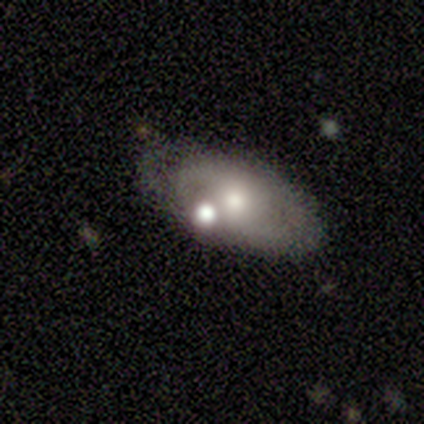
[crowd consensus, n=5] Morphology: type=featured or disk (60%); edge-on=no (67%); bar=weak (50%, tied with no); spiral arms=yes (50%, tied with no); winding=medium (100%); arm count=2 (100%); bulge=moderate (100%); merging=minor disturbance (67%).